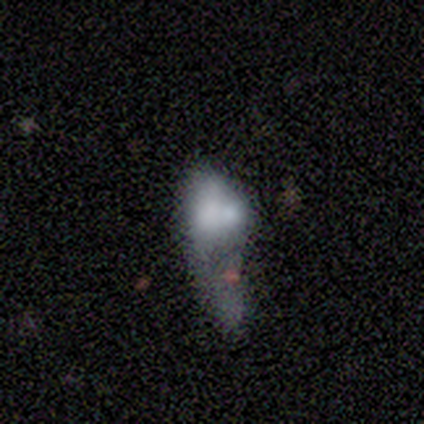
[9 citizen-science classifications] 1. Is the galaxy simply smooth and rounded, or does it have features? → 56% smooth, 33% featured or disk, 11% star or artifact.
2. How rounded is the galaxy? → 80% in between, 20% cigar-shaped, 0% round.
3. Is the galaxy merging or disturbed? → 75% major disturbance, 25% minor disturbance, 0% none, 0% merger.